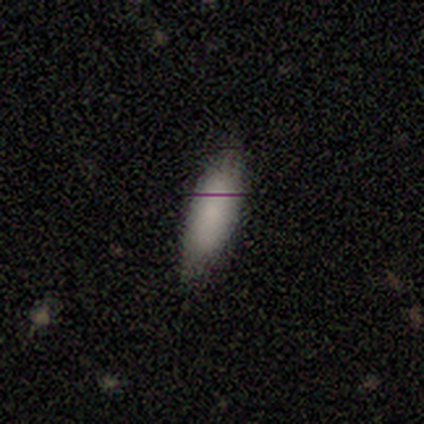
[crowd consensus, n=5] Overall: smooth (100%). How rounded: in between (80%). Merging: none (80%).